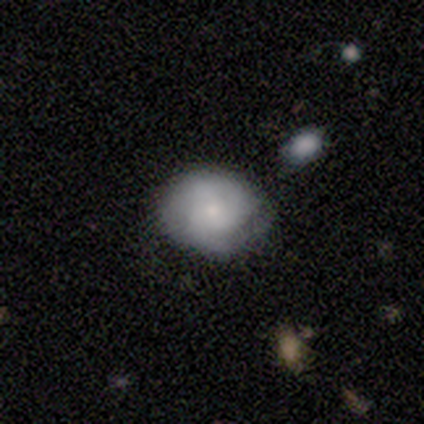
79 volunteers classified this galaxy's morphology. Smooth or featured? 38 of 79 (48%) said featured or disk. Edge-on disk? 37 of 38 (97%) said no. Bar? 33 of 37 (89%) said no. Spiral arms? 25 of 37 (68%) said yes. Spiral winding? 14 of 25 (56%) said tight. Spiral arm count? 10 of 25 (40%) said can't tell. Bulge size? 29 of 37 (78%) said small. Merging? 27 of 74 (36%) said none.